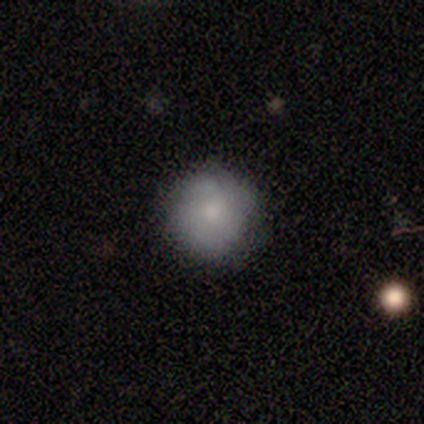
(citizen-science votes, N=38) smooth_or_featured: smooth (p=0.63) [alt: featured or disk p=0.29]
how_rounded: round (p=0.96) [alt: in between p=0.04]
merging: none (p=0.91) [alt: minor disturbance p=0.09]